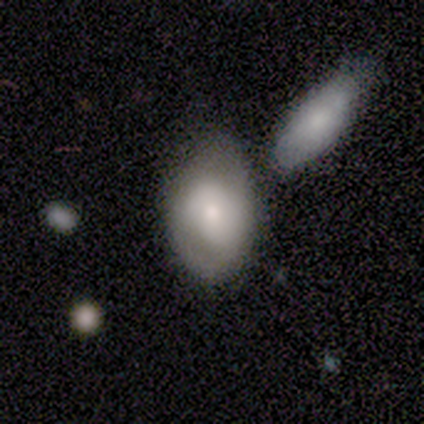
This is likely a smooth galaxy (62%). How rounded: likely in between (74%). Merging: possibly none (46%).